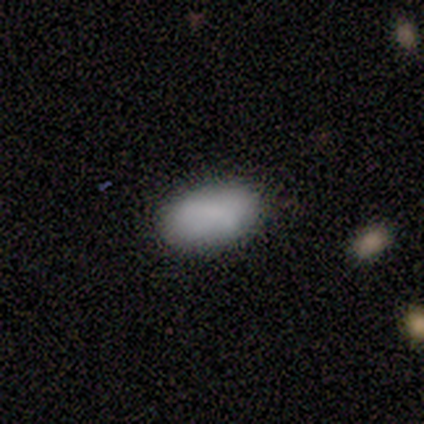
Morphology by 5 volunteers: Smooth or featured? 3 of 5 (60%) said smooth. How rounded? 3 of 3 (100%) said in between. Merging? 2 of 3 (67%) said none.